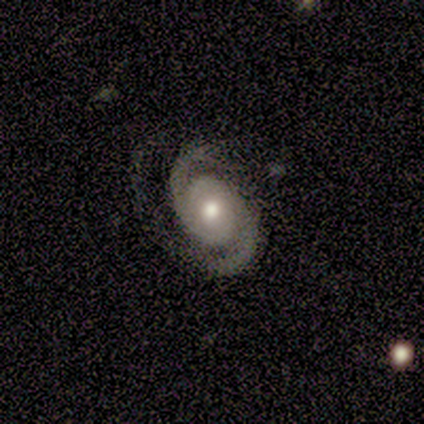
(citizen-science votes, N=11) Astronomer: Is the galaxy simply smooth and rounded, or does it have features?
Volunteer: featured or disk — 91%.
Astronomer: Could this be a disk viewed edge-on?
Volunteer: no — 100%.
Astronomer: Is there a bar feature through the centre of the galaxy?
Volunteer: no — 80%.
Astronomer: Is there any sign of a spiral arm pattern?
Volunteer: yes — 100%.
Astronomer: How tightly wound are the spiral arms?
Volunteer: medium — 50% (runner-up: tight, 30%).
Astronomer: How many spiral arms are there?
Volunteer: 2 — 90%.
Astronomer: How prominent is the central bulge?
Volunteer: moderate — 80%.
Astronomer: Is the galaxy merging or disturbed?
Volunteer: none — 82%.